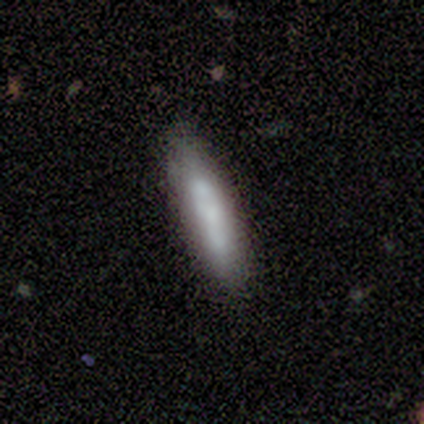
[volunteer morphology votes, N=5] Volunteers were most divided on "how rounded" (2-way tie): in between: 50%, cigar-shaped: 50%, round: 0%. More confident: smooth or featured — smooth (80%); merging — none (80%).